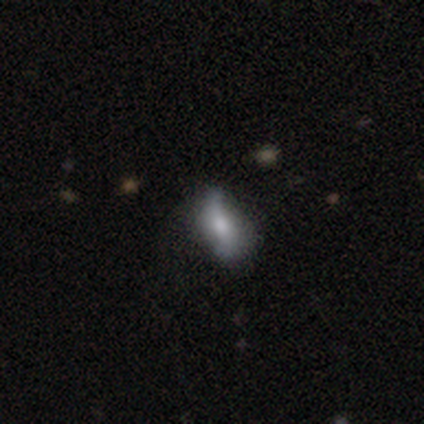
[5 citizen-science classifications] Smooth or featured: featured or disk — 60% (smooth — 20%)
Edge-on disk: no — 100%
Bar: no — 67% (strong — 33%)
Spiral arms: yes — 67% (no — 33%)
Spiral winding: loose — 100%
Spiral arm count: 2 — 100%
Bulge size: large — 33% (tied with moderate — 33%; small — 33%)
Merging: none — 75% (major disturbance — 25%)